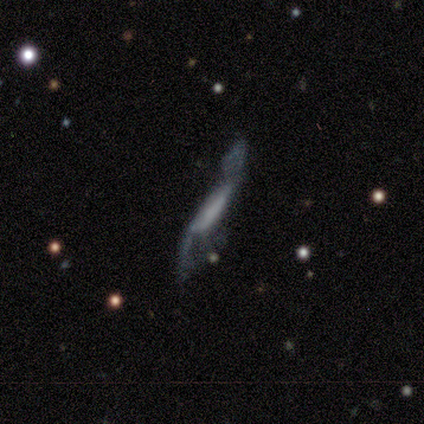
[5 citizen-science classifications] smooth_or_featured: featured or disk (p=0.60) [alt: smooth p=0.40]
disk_edge_on: no (p=0.67) [alt: yes p=0.33]
bar: strong (p=0.50) [tied with: weak p=0.50]
has_spiral_arms: yes (p=0.50) [tied with: no p=0.50]
spiral_winding: loose (p=1.00)
spiral_arm_count: 2 (p=1.00)
bulge_size: moderate (p=0.50) [tied with: none p=0.50]
merging: minor disturbance (p=0.40) [tied with: major disturbance p=0.40]